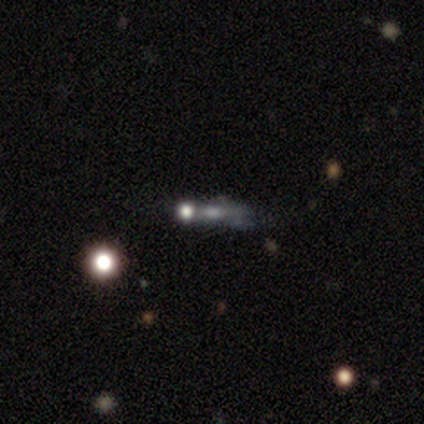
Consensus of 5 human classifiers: A smooth galaxy with no disk features (40%, tied with featured or disk) that is round (50%, tied with cigar-shaped). Merging: none (50%, tied with minor disturbance).